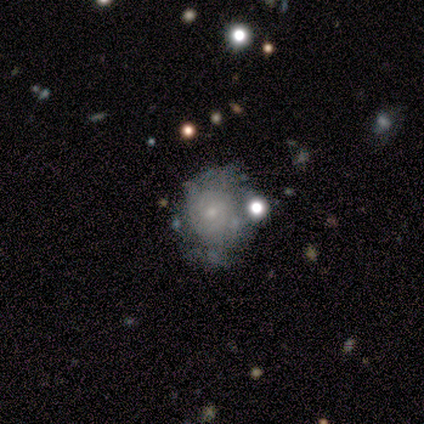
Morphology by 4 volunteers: Smooth or featured: featured or disk — 75% (smooth — 25%)
Edge-on disk: no — 100%
Bar: no — 100%
Spiral arms: yes — 100%
Spiral winding: tight — 100%
Spiral arm count: can't tell — 67% (4 — 33%)
Bulge size: small — 67% (moderate — 33%)
Merging: none — 50% (minor disturbance — 25%)